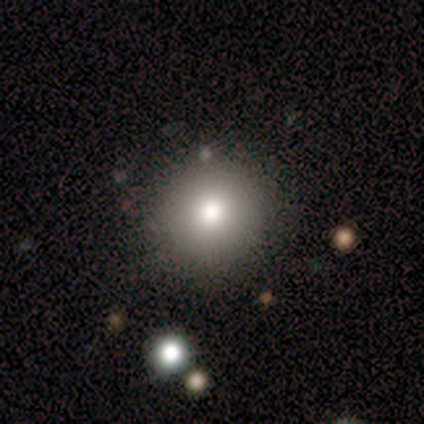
Q: Smooth or featured?
A: smooth (64%); runner-up: featured or disk (18%)
Q: How rounded?
A: round (100%)
Q: Merging?
A: none (100%)